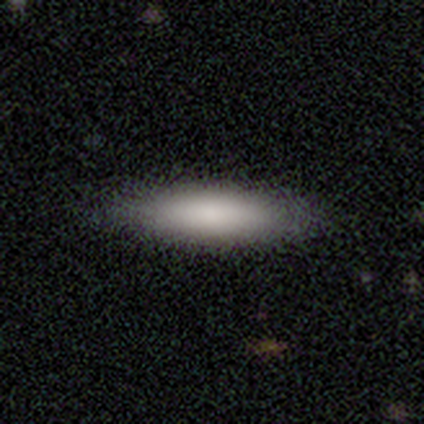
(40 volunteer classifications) This appears to be a smooth galaxy with no disk features (78%) that is cigar-shaped (58%). Merging: none (82%).